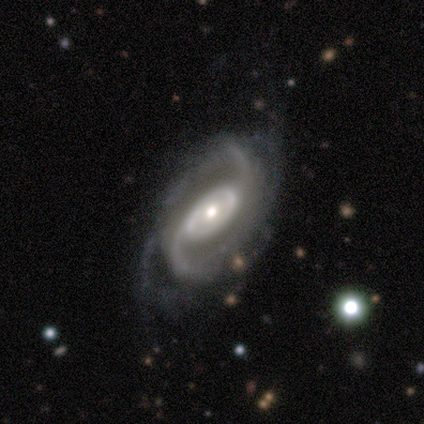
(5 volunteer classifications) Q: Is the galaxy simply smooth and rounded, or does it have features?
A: featured or disk — 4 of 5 (80%).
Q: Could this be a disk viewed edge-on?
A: no — 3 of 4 (75%).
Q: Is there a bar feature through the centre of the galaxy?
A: no — 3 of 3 (100%).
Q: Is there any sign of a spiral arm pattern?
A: yes — 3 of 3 (100%).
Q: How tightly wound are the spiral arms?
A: loose — 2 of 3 (67%).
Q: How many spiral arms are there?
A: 2 — 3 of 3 (100%).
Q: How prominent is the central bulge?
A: small — 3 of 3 (100%).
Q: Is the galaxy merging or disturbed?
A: none — 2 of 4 (50%, tied with minor disturbance).